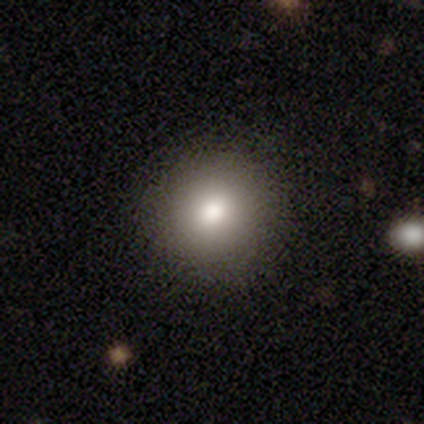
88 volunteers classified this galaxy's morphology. A smooth galaxy with no disk features (84%) that is round (92%). Merging: none (86%).